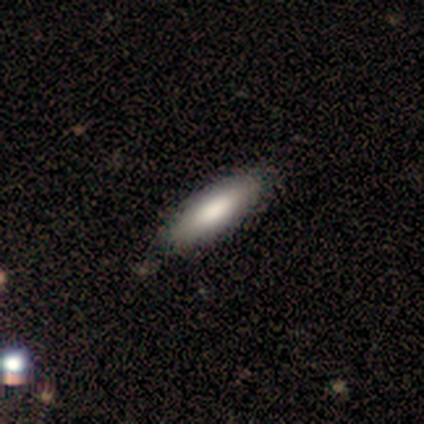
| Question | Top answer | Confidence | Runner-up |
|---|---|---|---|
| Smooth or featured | smooth | 75% | star or artifact (25%) |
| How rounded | cigar-shaped | 67% | in between (33%) |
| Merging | none | 100% | — |